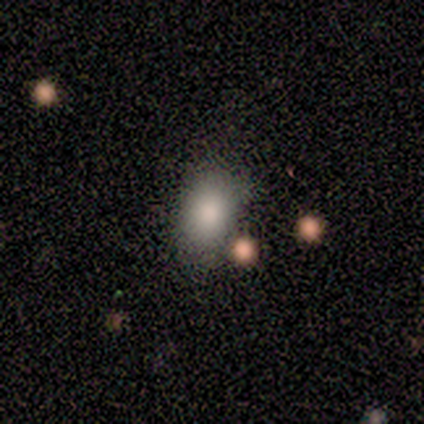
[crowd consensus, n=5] Smooth or featured?
  - smooth: 100% *
  - featured or disk: 0%
  - star or artifact: 0%
How rounded?
  - in between: 80% *
  - round: 20%
  - cigar-shaped: 0%
Merging?
  - none: 80% *
  - major disturbance: 20%
  - minor disturbance: 0%
  - merger: 0%